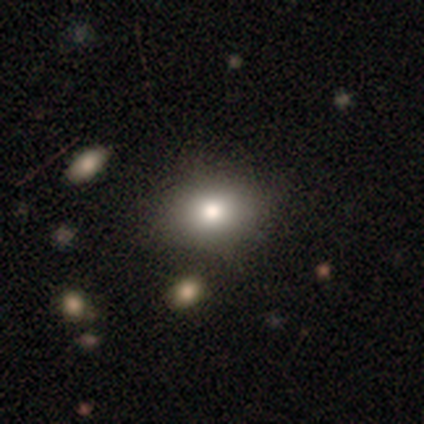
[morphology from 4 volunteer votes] type=smooth (100%); roundness=round (50%, tied with in between); merging=none (100%).